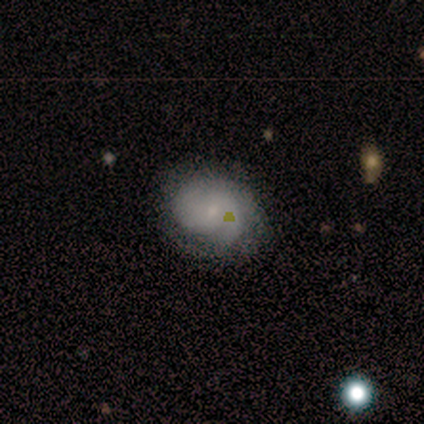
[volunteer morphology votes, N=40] smooth_or_featured: featured or disk (p=0.68) [alt: smooth p=0.17]
disk_edge_on: no (p=0.96) [alt: yes p=0.04]
bar: no (p=0.54) [alt: weak p=0.35]
has_spiral_arms: yes (p=0.88) [alt: no p=0.12]
spiral_winding: tight (p=0.57) [alt: medium p=0.35]
spiral_arm_count: 2 (p=0.52) [alt: can't tell p=0.26]
bulge_size: small (p=0.73) [alt: moderate p=0.15]
merging: none (p=0.82) [alt: minor disturbance p=0.15]